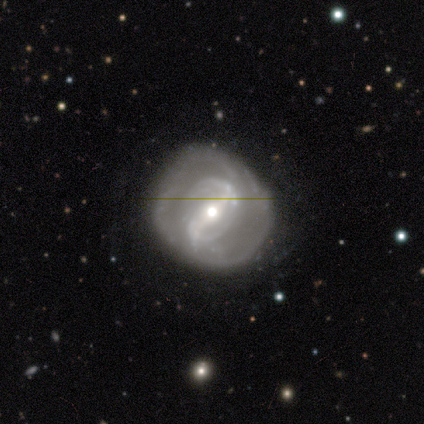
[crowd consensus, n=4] Smooth or featured?
  - featured or disk: 75% *
  - star or artifact: 25%
  - smooth: 0%
Edge-on disk?
  - no: 67% *
  - yes: 33%
Bar?
  - strong: 100% *
  - weak: 0%
  - no: 0%
Spiral arms?
  - yes: 50% * (tied)
  - no: 50% * (tied)
Spiral winding?
  - medium: 100% *
  - tight: 0%
  - loose: 0%
Spiral arm count?
  - 2: 100% *
  - 1: 0%
  - 3: 0%
  - 4: 0%
  - more than 4: 0%
  - can't tell: 0%
Bulge size?
  - small: 100% *
  - dominant: 0%
  - large: 0%
  - moderate: 0%
  - none: 0%
Merging?
  - none: 100% *
  - minor disturbance: 0%
  - major disturbance: 0%
  - merger: 0%